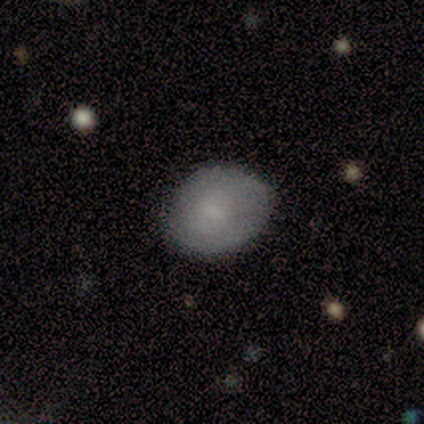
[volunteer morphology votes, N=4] This is likely a smooth galaxy (75%). How rounded: likely round (67%). Merging: likely none (75%).